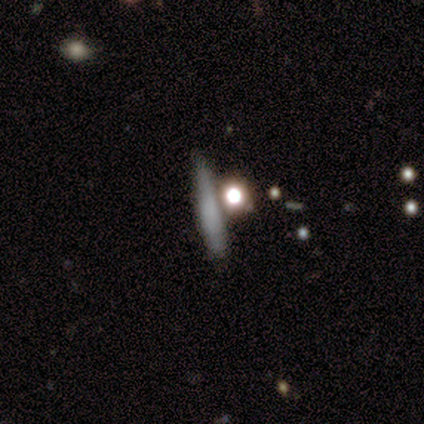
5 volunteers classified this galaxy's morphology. smooth-or-featured: smooth: 80% | featured or disk: 20% | star or artifact: 0%
  how-rounded: cigar-shaped: 100% | round: 0% | in between: 0%
  merging: none: 80% | merger: 20% | minor disturbance: 0% | major disturbance: 0%